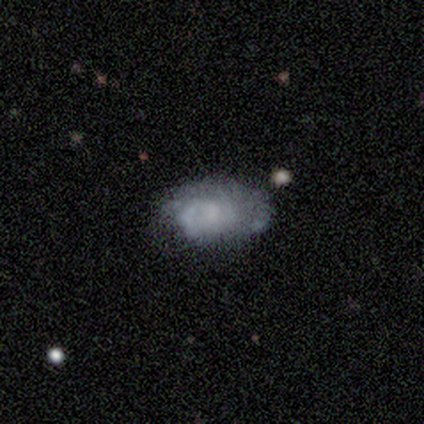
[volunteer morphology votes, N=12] smooth-or-featured: featured or disk: 58% | smooth: 42% | star or artifact: 0%
  disk-edge-on: no: 100% | yes: 0%
    bar: no: 71% | weak: 29% | strong: 0%
    has-spiral-arms: no: 57% | yes: 43%
    bulge-size: none: 57% | large: 14% | moderate: 14% | small: 14% | dominant: 0%
  merging: none: 75% | major disturbance: 17% | minor disturbance: 8% | merger: 0%